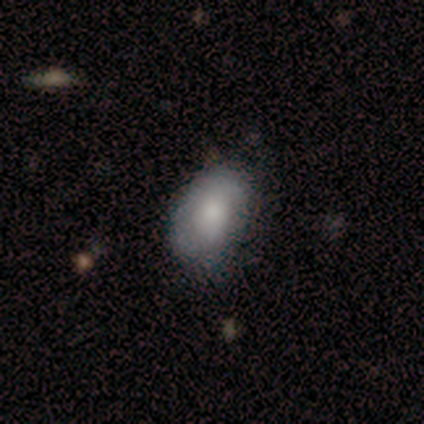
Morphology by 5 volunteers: Smooth or featured: smooth — 100%
How rounded: in between — 60% (round — 40%)
Merging: minor disturbance — 60% (none — 40%)